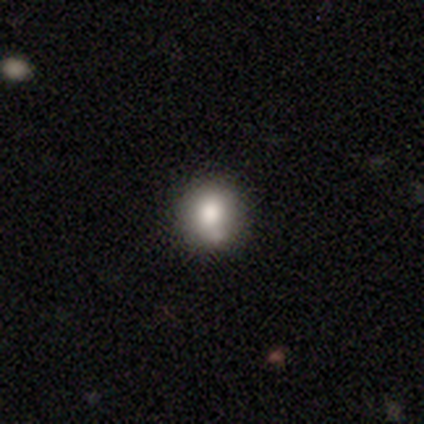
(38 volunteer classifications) A smooth galaxy with no disk features (84%) that is round (91%).

Vote fractions:
- Smooth or featured? smooth: 84% / featured or disk: 8% / star or artifact: 8%
- How rounded? round: 91% / in between: 9% / cigar-shaped: 0%
- Merging? none: 66% / minor disturbance: 17% / merger: 17% / major disturbance: 0%